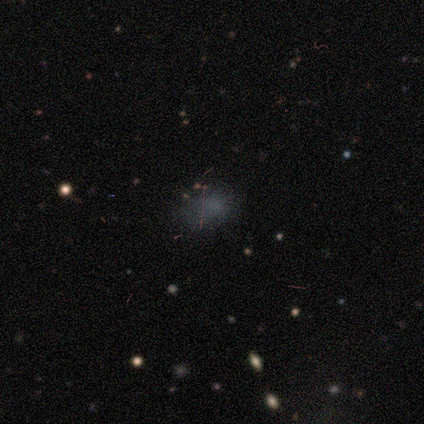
smooth_or_featured: star or artifact (p=0.50) [alt: smooth p=0.25]